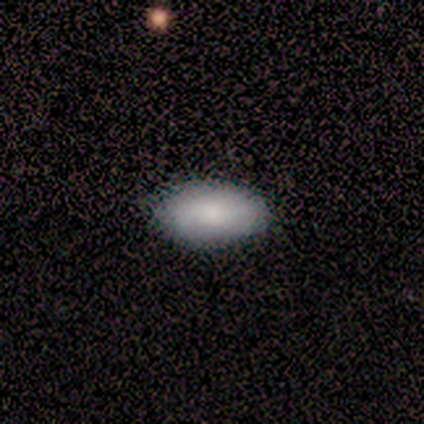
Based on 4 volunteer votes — smooth_or_featured: smooth (p=0.75) [alt: star or artifact p=0.25]
how_rounded: in between (p=1.00)
merging: none (p=0.67) [alt: major disturbance p=0.33]